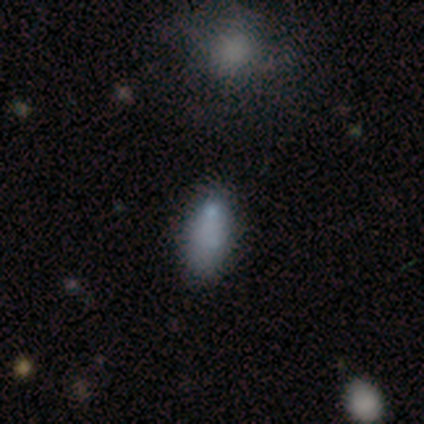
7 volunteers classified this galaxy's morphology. Overall: smooth (86%). How rounded: in between (67%; cigar-shaped 33%). Merging: none (71%).